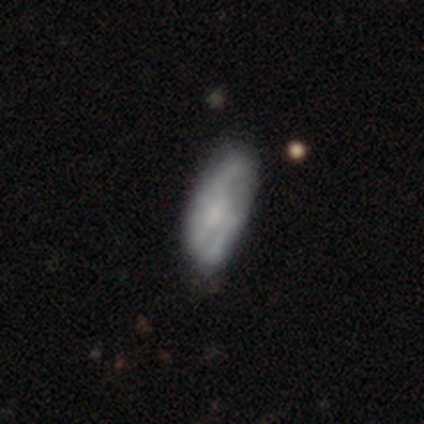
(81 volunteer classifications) Smooth or featured? 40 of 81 (49%) said featured or disk. Edge-on disk? 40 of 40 (100%) said no. Bar? 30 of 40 (75%) said no. Spiral arms? 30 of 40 (75%) said yes. Spiral winding? 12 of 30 (40%, tied with loose) said medium. Spiral arm count? 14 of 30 (47%) said can't tell. Bulge size? 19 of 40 (48%) said none. Merging? 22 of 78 (28%) said none.